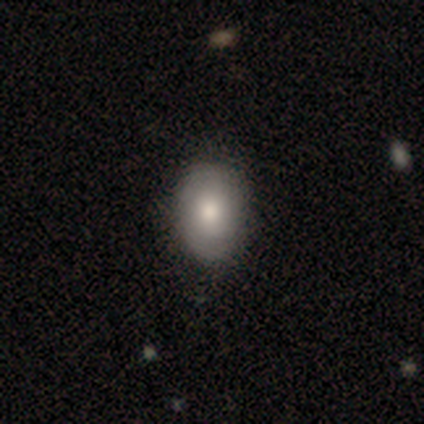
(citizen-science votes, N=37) This appears to be a smooth galaxy with no disk features (78%) that is in between round and cigar-shaped (72%). Merging: none (62%).